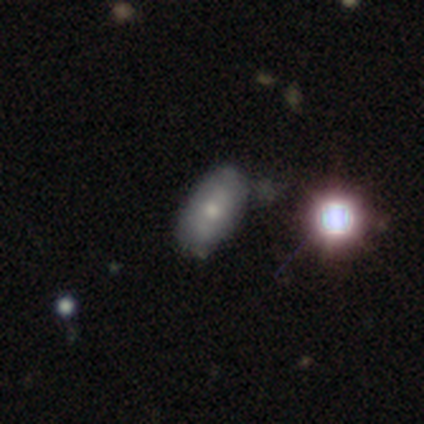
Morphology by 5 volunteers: Overall: smooth (60%; star or artifact 40%). How rounded: in between (100%). Merging: none (67%; minor disturbance 33%).